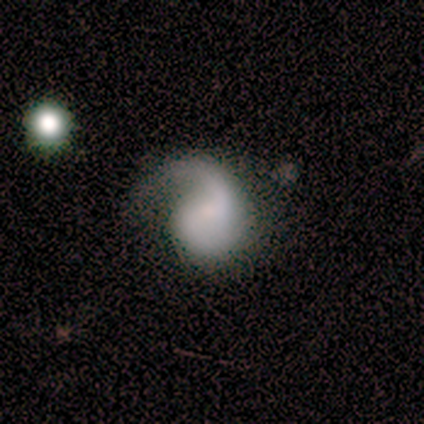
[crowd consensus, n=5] smooth-or-featured: featured or disk: 60% | smooth: 40% | star or artifact: 0%
  disk-edge-on: no: 100% | yes: 0%
    bar: weak: 67% | no: 33% | strong: 0%
    has-spiral-arms: yes: 100% | no: 0%
      spiral-winding: medium: 67% | loose: 33% | tight: 0%
      spiral-arm-count: 2: 67% | 1: 33% | 3: 0% | 4: 0% | more than 4: 0% | can't tell: 0%
    bulge-size: small: 67% | none: 33% | dominant: 0% | large: 0% | moderate: 0%
  merging: major disturbance: 60% | none: 40% | minor disturbance: 0% | merger: 0%